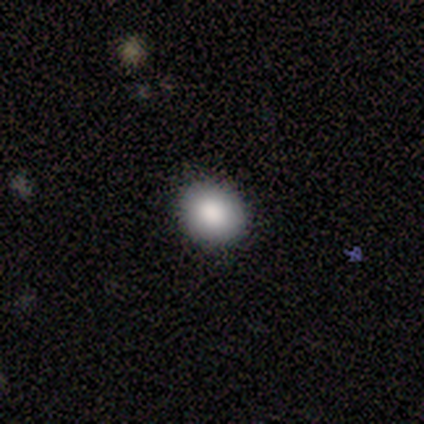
This is clearly a smooth galaxy (80%). How rounded: likely round (75%). Merging: clearly none (80%).